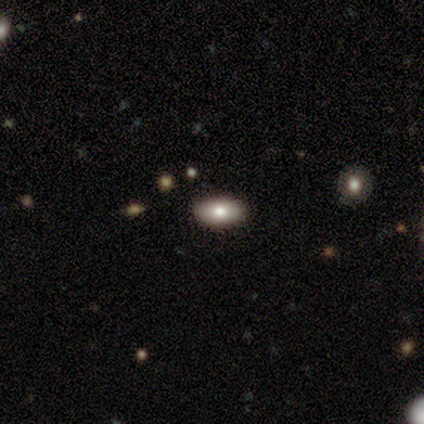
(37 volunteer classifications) Smooth or featured? 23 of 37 (62%) said smooth. How rounded? 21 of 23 (91%) said in between. Merging? 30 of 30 (100%) said none.